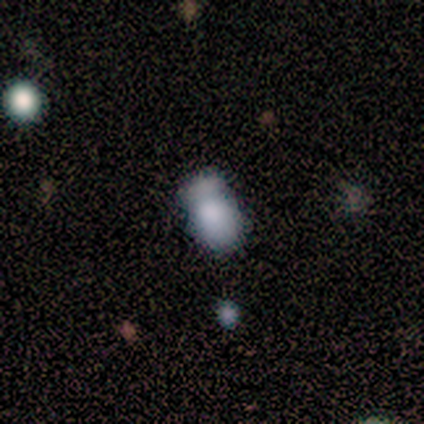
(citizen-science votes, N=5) This is clearly a smooth galaxy (100%). How rounded: clearly in between (80%). Merging: likely merger (60%).